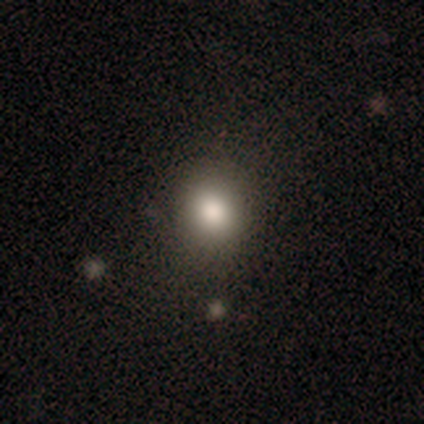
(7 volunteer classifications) smooth_or_featured: smooth (p=0.86) [alt: star or artifact p=0.14]
how_rounded: round (p=1.00)
merging: none (p=0.83) [alt: minor disturbance p=0.17]